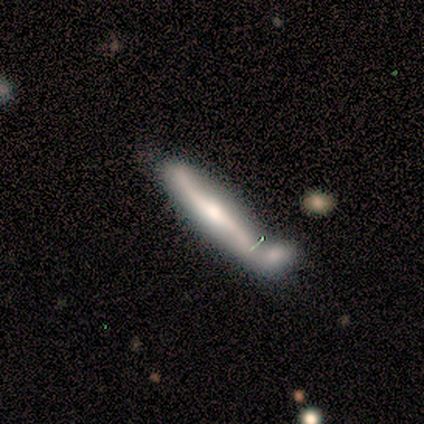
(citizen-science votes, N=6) Morphology: type=featured or disk (67%); edge-on=yes (100%); edge-on bulge=rounded (100%); merging=major disturbance (33%, tied with merger).